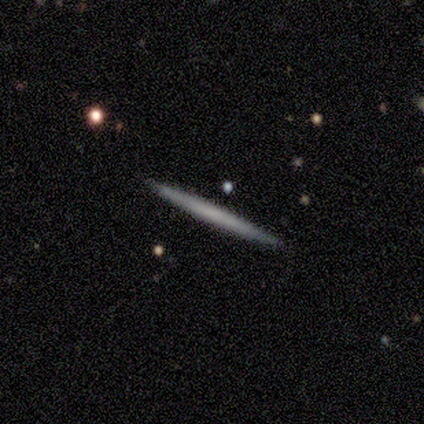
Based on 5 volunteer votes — A featured or disk galaxy (60%) viewed edge-on (100%) with no central bulge (100%). Merging: none (100%).